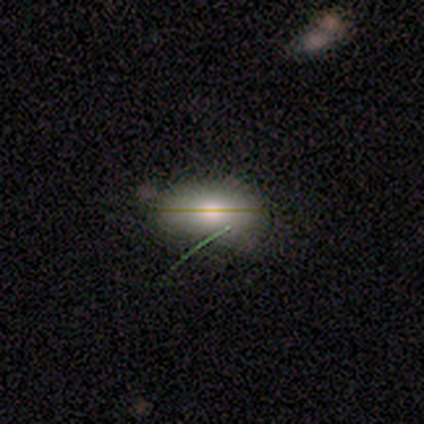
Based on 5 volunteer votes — Smooth or featured? star or artifact (60%)